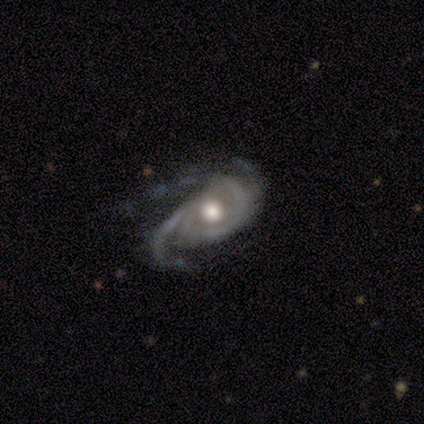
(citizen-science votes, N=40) featured or disk 90%, smooth 5%, star or artifact 5%. Down the decision tree: edge-on disk — no (100%); bar — no (75%); spiral arms — yes (94%); spiral arm count — 2 (65%); spiral winding — tight (41%, tied with medium); bulge size — moderate (50%); merging — none (47%).